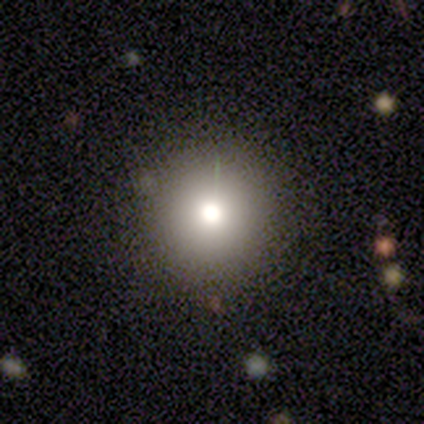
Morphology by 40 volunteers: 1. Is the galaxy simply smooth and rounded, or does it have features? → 80% smooth, 15% star or artifact, 5% featured or disk.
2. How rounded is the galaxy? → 94% round, 6% in between, 0% cigar-shaped.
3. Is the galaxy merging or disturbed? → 91% none, 9% minor disturbance, 0% major disturbance, 0% merger.